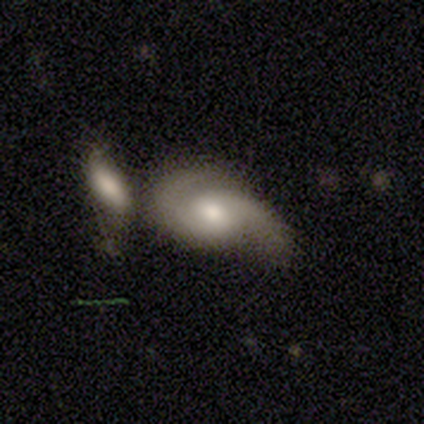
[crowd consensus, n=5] Q: Smooth or featured?
A: featured or disk (100%)
Q: Edge-on disk?
A: no (100%)
Q: Bar?
A: no (60%); runner-up: strong (20%)
Q: Spiral arms?
A: yes (100%)
Q: Spiral winding?
A: medium (60%); runner-up: tight (20%)
Q: Spiral arm count?
A: 2 (100%)
Q: Bulge size?
A: moderate (80%); runner-up: small (20%)
Q: Merging?
A: merger (60%); runner-up: none (20%)